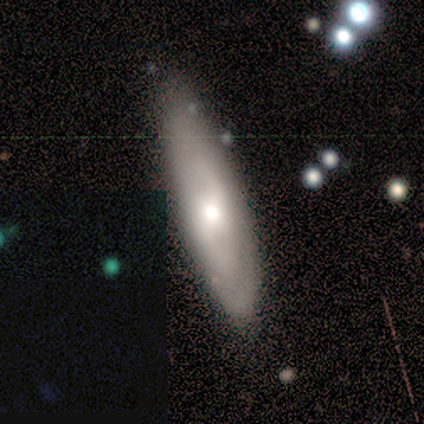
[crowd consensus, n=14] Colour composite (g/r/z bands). It shows a featured or disk galaxy (64%) with no bar (75%), 2 (75%) medium (50%, tied with loose) spiral arms (50%, tied with no) and a moderate central bulge (62%). Merging: none (79%).